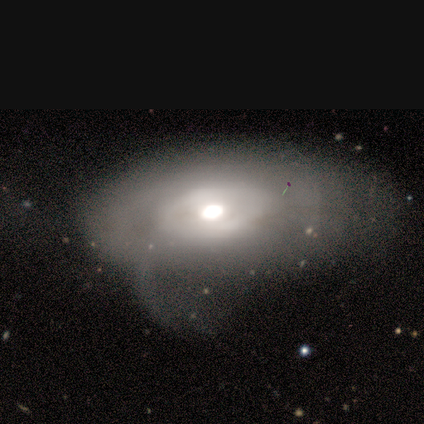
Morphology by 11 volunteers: Smooth or featured? 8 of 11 (73%) said featured or disk. Edge-on disk? 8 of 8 (100%) said no. Bar? 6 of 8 (75%) said no. Spiral arms? 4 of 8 (50%, tied with no) said yes. Spiral winding? 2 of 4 (50%) said loose. Spiral arm count? 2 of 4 (50%) said can't tell. Bulge size? 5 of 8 (62%) said moderate. Merging? 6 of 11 (55%) said major disturbance.